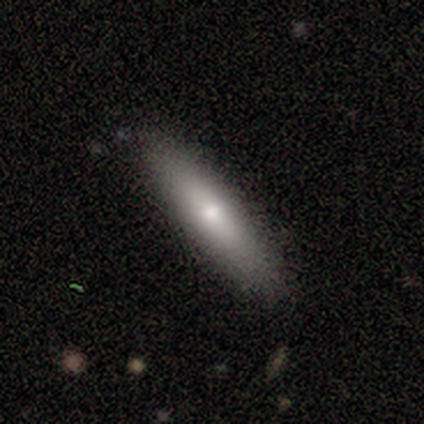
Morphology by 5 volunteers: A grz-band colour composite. It shows a smooth galaxy with no disk features (80%) that is cigar-shaped (75%). Merging: none (80%).